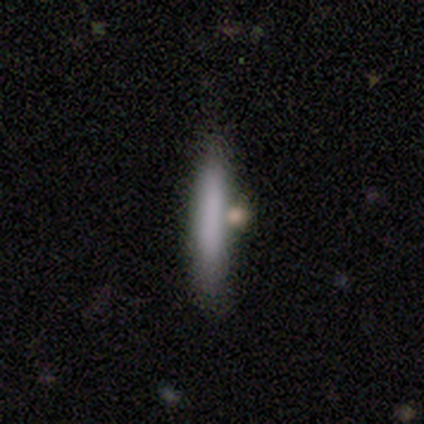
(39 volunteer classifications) A smooth galaxy with no disk features (77%) that is cigar-shaped (90%).

Vote fractions:
- Smooth or featured? smooth: 77% / featured or disk: 18% / star or artifact: 5%
- How rounded? cigar-shaped: 90% / in between: 10% / round: 0%
- Merging? none: 78% / minor disturbance: 14% / merger: 5% / major disturbance: 3%